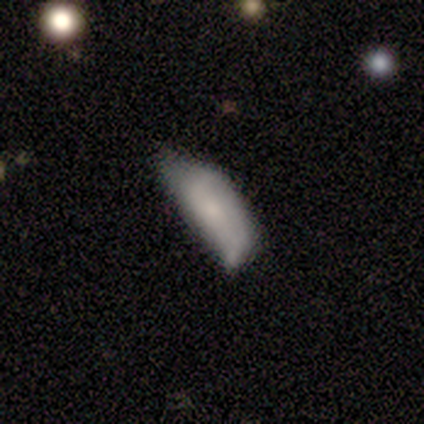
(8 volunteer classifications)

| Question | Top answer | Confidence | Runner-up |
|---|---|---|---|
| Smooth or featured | smooth | 62% | featured or disk (38%) |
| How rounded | in between | 80% | cigar-shaped (20%) |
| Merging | minor disturbance | 50% | none (25%) |